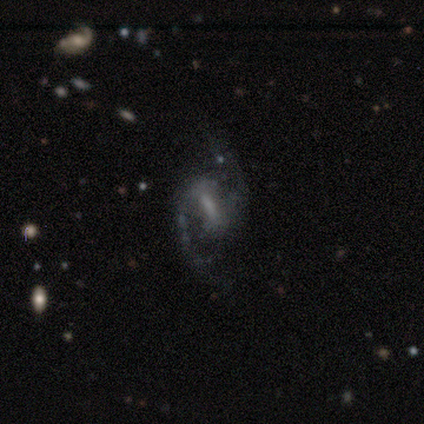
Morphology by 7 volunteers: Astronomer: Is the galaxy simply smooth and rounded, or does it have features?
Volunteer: featured or disk — 100%.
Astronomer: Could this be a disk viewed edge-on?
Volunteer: no — 100%.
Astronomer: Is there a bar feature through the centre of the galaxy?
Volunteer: strong — 57% (runner-up: weak, 43%).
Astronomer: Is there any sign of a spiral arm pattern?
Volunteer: yes — 100%.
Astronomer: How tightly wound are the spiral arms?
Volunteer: medium — 71%.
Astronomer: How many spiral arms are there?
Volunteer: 2 — 100%.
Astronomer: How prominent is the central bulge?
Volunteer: moderate — 43%, tied with none at 43%.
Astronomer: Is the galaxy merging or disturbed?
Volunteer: none — 86%.